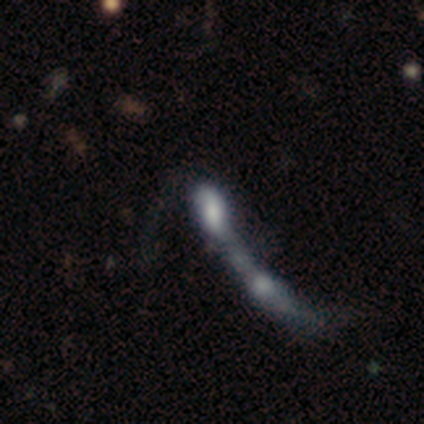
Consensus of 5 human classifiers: smooth_or_featured: smooth (p=0.60) [alt: star or artifact p=0.40]
how_rounded: in between (p=0.67) [alt: cigar-shaped p=0.33]
merging: merger (p=1.00)